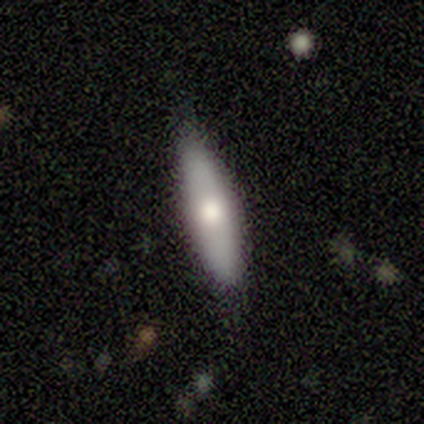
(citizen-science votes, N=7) Volunteers were most divided on "how rounded" (2-way tie): in between: 50%, cigar-shaped: 50%, round: 0%. More confident: smooth or featured — smooth (57%); merging — none (57%).